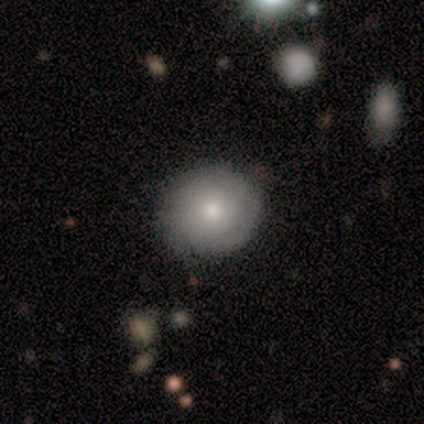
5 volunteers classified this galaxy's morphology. Q: Smooth or featured?
A: smooth (100%)
Q: How rounded?
A: round (100%)
Q: Merging?
A: none (100%)